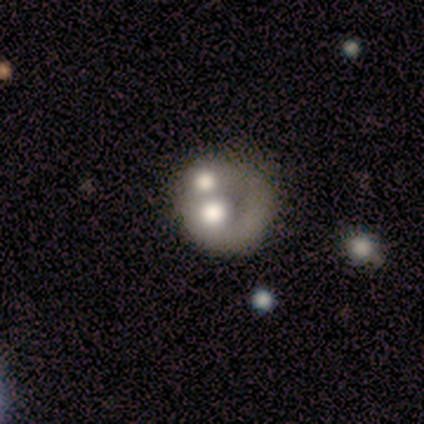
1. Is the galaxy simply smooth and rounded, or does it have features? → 55% featured or disk, 35% smooth, 10% star or artifact.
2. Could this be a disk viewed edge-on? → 100% no, 0% yes.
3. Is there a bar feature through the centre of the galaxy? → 100% no, 0% strong, 0% weak.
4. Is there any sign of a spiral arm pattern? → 100% no, 0% yes.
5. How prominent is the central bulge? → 36% moderate, 27% large, 27% none, 5% dominant, 5% small.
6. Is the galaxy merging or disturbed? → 50% merger, 31% none, 11% major disturbance, 8% minor disturbance.